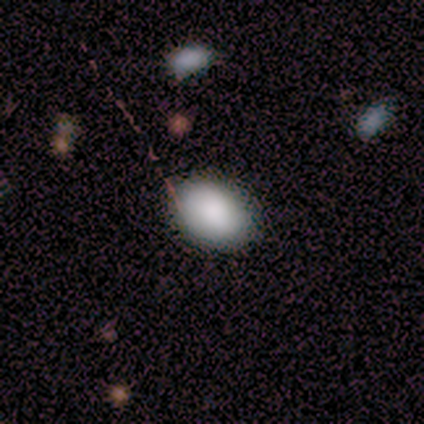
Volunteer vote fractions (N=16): Volunteers were most divided on "how rounded": in between: 88%, round: 12%, cigar-shaped: 0%. More confident: smooth or featured — smooth (100%); merging — none (88%).